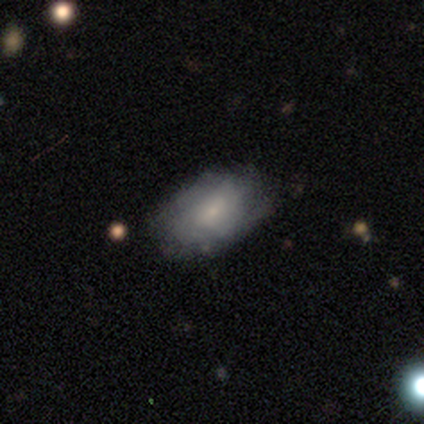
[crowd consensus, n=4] featured or disk 75%, smooth 25%, star or artifact 0%. Down the decision tree: edge-on disk — no (100%); bar — weak (67%); spiral arms — yes (100%); spiral arm count — can't tell (67%); spiral winding — tight (67%); bulge size — small (100%); merging — none (75%).